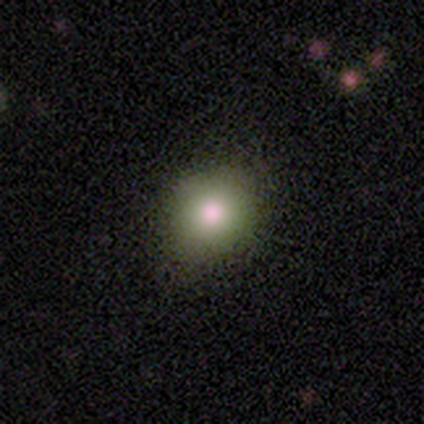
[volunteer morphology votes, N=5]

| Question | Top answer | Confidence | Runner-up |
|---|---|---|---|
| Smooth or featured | smooth | 100% | — |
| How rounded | round | 100% | — |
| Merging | none | 80% | minor disturbance (20%) |